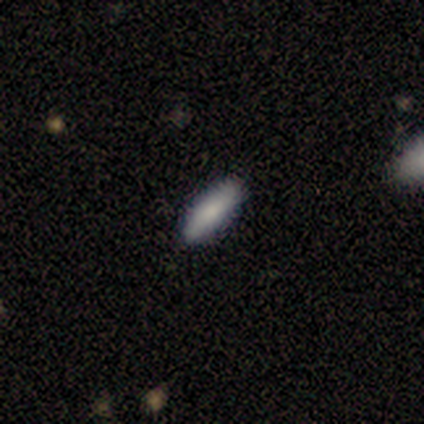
smooth-or-featured: smooth: 100% | featured or disk: 0% | star or artifact: 0%
  how-rounded: in between: 50% (tied) | cigar-shaped: 50% (tied) | round: 0%
  merging: none: 100% | minor disturbance: 0% | major disturbance: 0% | merger: 0%